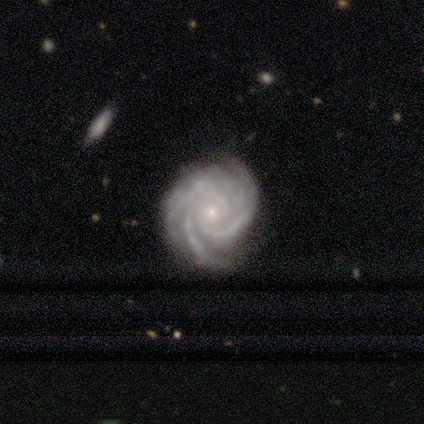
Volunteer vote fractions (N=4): A featured or disk galaxy (100%) with no bar (100%), 3 (50%) medium (100%) spiral arms (100%) and a small central bulge (100%). Merging: none (50%, tied with minor disturbance).